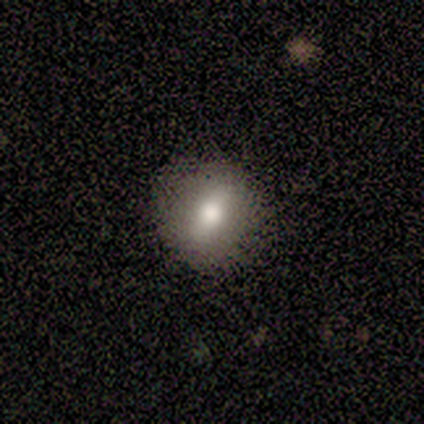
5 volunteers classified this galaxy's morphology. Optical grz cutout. It shows a smooth galaxy with no disk features (60%) that is in between round and cigar-shaped (67%). Merging: none (75%).